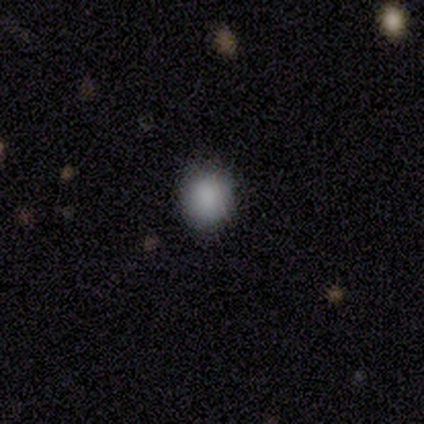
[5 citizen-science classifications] smooth_or_featured: smooth (p=1.00)
how_rounded: round (p=1.00)
merging: none (p=1.00)